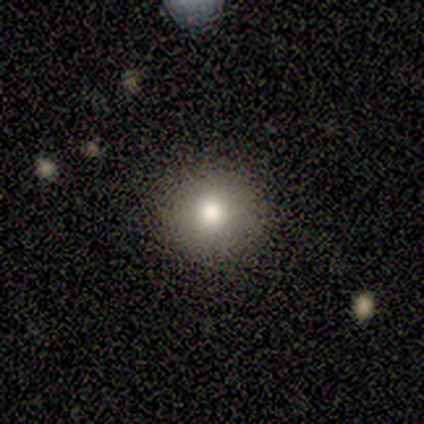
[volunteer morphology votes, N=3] Smooth or featured?
  - smooth: 67% *
  - star or artifact: 33%
  - featured or disk: 0%
How rounded?
  - round: 100% *
  - in between: 0%
  - cigar-shaped: 0%
Merging?
  - none: 50% * (tied)
  - minor disturbance: 50% * (tied)
  - major disturbance: 0%
  - merger: 0%